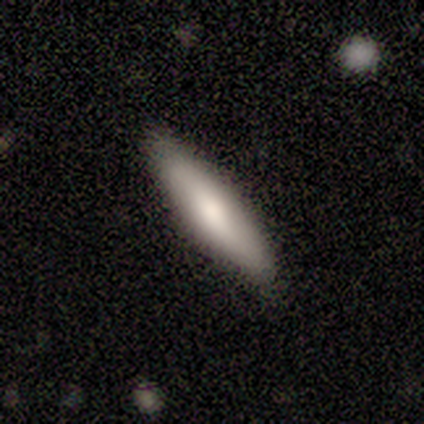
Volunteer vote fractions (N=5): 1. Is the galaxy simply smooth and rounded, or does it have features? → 100% smooth, 0% featured or disk, 0% star or artifact.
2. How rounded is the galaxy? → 80% cigar-shaped, 20% in between, 0% round.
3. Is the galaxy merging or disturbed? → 60% none, 20% minor disturbance, 20% merger, 0% major disturbance.